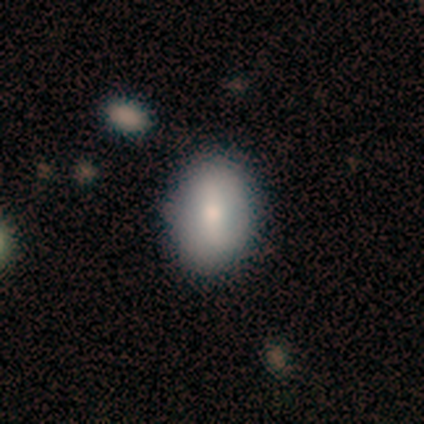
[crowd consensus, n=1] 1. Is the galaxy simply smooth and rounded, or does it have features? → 100% smooth, 0% featured or disk, 0% star or artifact.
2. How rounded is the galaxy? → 100% in between, 0% round, 0% cigar-shaped.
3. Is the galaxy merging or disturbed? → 100% none, 0% minor disturbance, 0% major disturbance, 0% merger.